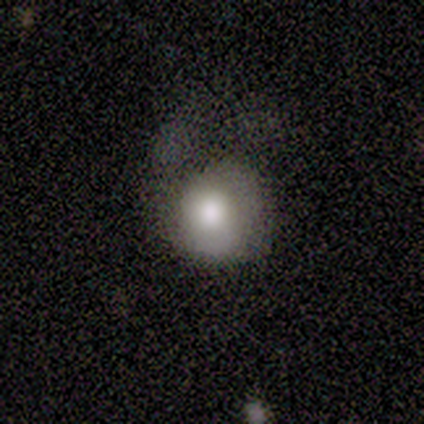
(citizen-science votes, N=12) Q: Smooth or featured?
A: smooth (42%); runner-up: featured or disk (33%)
Q: How rounded?
A: round (80%); runner-up: in between (20%)
Q: Merging?
A: none (56%); runner-up: major disturbance (44%)